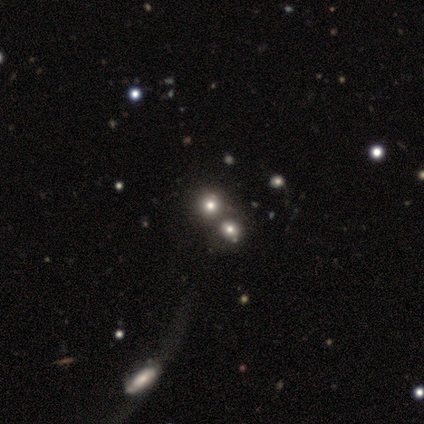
Morphology: type=smooth (60%); roundness=round (67%); merging=major disturbance (40%, tied with merger).